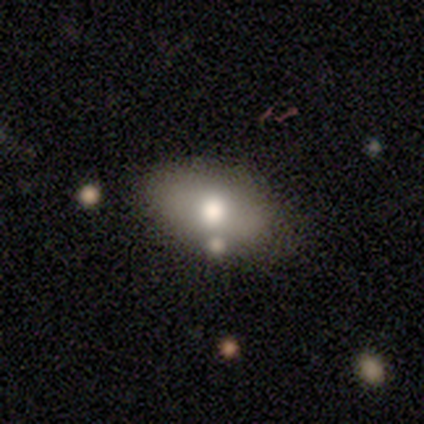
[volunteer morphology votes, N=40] A smooth galaxy with no disk features (80%) that is in between round and cigar-shaped (94%).

Vote fractions:
- Smooth or featured? smooth: 80% / featured or disk: 18% / star or artifact: 2%
- How rounded? in between: 94% / round: 6% / cigar-shaped: 0%
- Merging? none: 79% / minor disturbance: 13% / major disturbance: 5% / merger: 3%